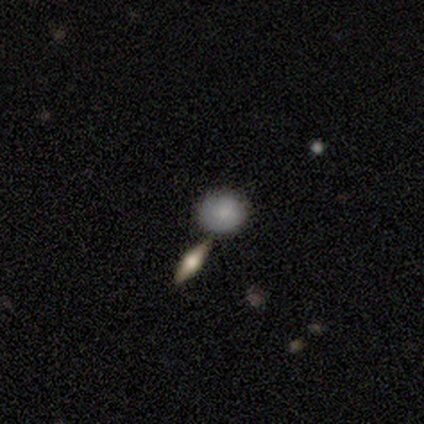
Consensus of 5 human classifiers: Smooth or featured? 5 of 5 (100%) said smooth. How rounded? 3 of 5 (60%) said round. Merging? 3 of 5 (60%) said none.